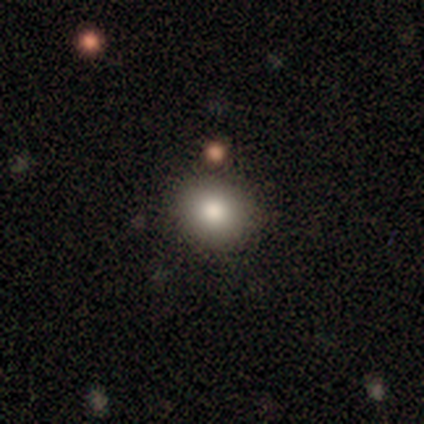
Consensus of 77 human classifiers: Volunteers were most divided on "how rounded": round: 77%, in between: 23%, cigar-shaped: 0%. More confident: smooth or featured — smooth (79%); merging — none (58%).